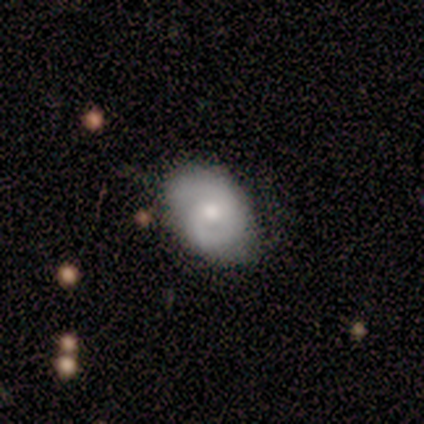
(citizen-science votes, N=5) Smooth or featured? featured or disk (80%)
Edge-on disk? no (100%)
Bar? no (75%)
Spiral arms? yes (75%)
Spiral winding? tight (33%, tied with medium and loose)
Spiral arm count? 2 (67%)
Bulge size? moderate (50%)
Merging? minor disturbance (40%)